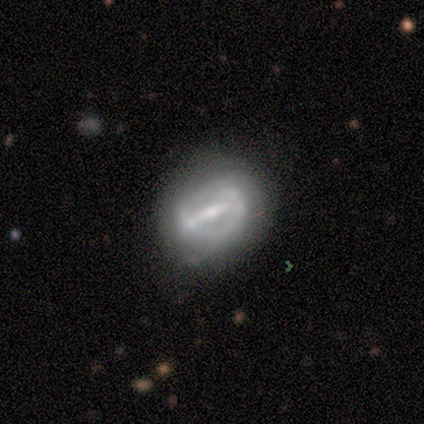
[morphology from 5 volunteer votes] type=featured or disk (80%); edge-on=no (100%); bar=strong (50%, tied with weak); spiral arms=yes (75%); winding=loose (67%); arm count=can't tell (100%); bulge=moderate (50%, tied with small); merging=none (40%, tied with minor disturbance).